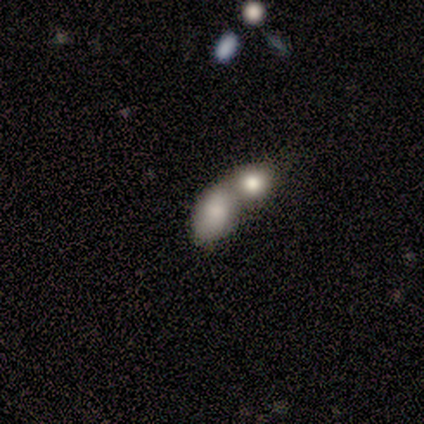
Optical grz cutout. It shows a smooth galaxy with no disk features (100%) that is in between round and cigar-shaped (80%). Merging: merger (100%).